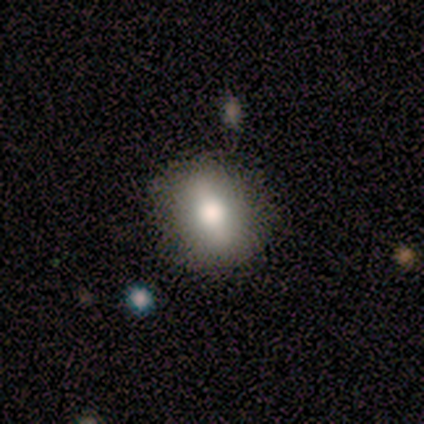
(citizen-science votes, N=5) Morphology: type=smooth (60%); roundness=round (100%); merging=none (80%).